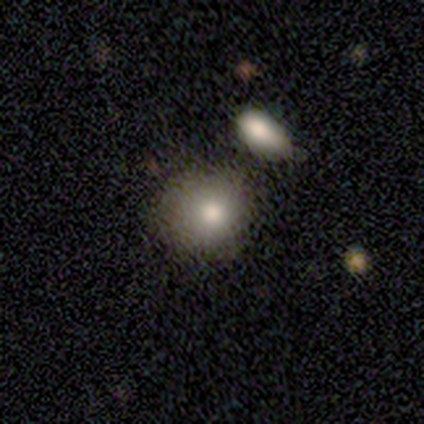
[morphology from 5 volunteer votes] smooth-or-featured: featured or disk: 60% | smooth: 40% | star or artifact: 0%
  disk-edge-on: no: 100% | yes: 0%
    bar: no: 100% | strong: 0% | weak: 0%
    has-spiral-arms: no: 100% | yes: 0%
    bulge-size: moderate: 67% | large: 33% | dominant: 0% | small: 0% | none: 0%
  merging: minor disturbance: 40% (tied) | merger: 40% (tied) | none: 20% | major disturbance: 0%